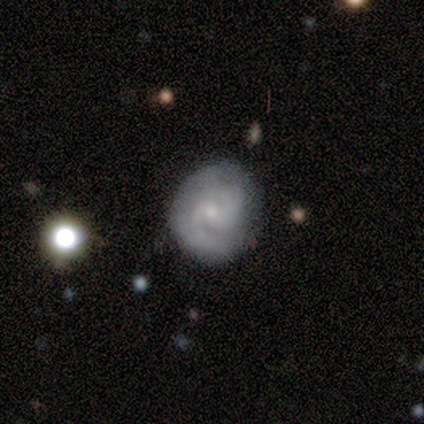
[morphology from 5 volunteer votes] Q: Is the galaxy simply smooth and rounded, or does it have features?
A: featured or disk — 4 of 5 (80%).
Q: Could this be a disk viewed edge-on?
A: no — 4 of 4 (100%).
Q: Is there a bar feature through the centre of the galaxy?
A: weak — 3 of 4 (75%).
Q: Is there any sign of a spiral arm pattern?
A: yes — 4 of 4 (100%).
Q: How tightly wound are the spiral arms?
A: tight — 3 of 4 (75%).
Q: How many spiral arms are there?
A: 2 — 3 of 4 (75%).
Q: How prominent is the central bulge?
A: small — 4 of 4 (100%).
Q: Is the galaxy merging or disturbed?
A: none — 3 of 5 (60%).